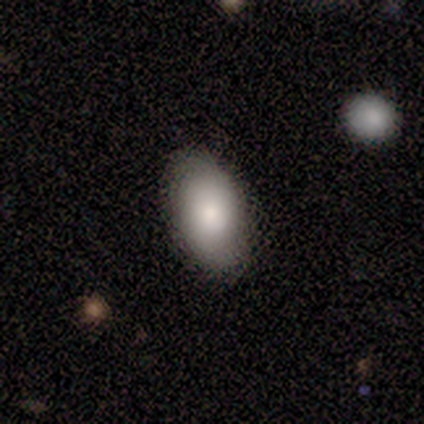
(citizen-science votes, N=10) Smooth or featured? smooth (70%)
How rounded? in between (100%)
Merging? none (71%)